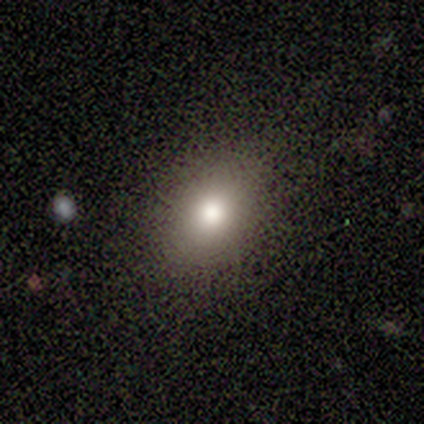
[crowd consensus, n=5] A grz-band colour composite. It shows a smooth galaxy with no disk features (60%) that is in between round and cigar-shaped (67%). Merging: none (33%, tied with minor disturbance and major disturbance).